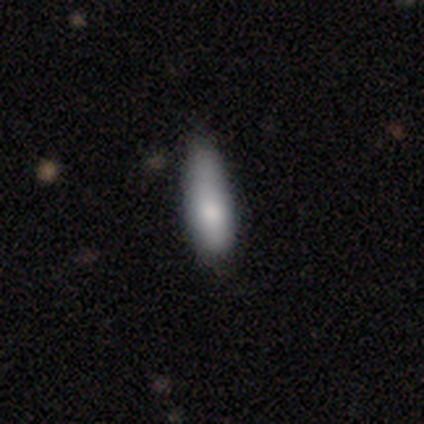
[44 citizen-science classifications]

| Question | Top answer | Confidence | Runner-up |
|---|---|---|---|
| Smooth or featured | smooth | 86% | featured or disk (7%) |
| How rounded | cigar-shaped | 66% | in between (34%) |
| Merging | none | 56% | minor disturbance (32%) |